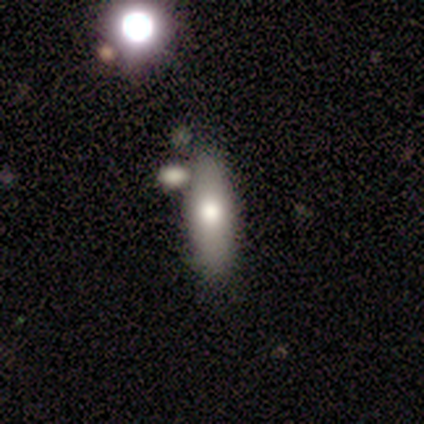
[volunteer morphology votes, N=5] This is clearly a smooth galaxy (80%). How rounded: possibly in between (50%). Merging: likely none (60%).